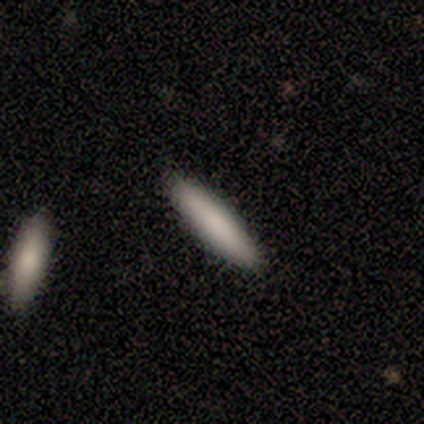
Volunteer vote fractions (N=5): A smooth galaxy with no disk features (60%) that is cigar-shaped (100%). Merging: none (100%).